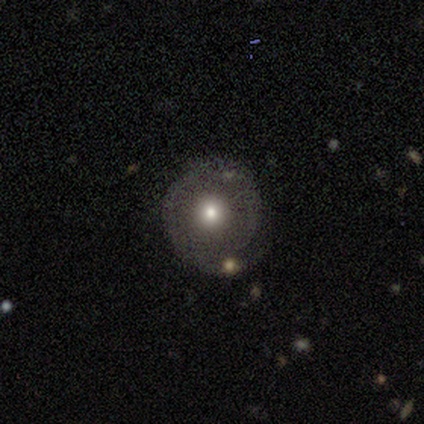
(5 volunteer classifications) Smooth or featured? 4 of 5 (80%) said smooth. How rounded? 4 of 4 (100%) said round. Merging? 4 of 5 (80%) said none.